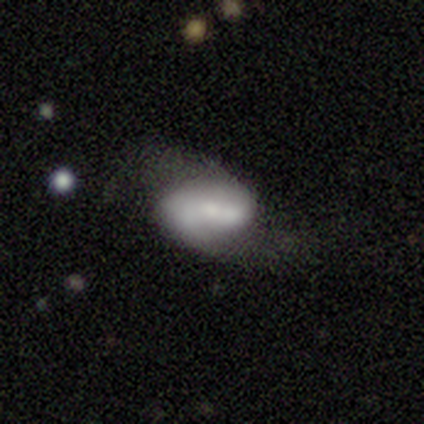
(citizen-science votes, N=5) Smooth or featured?
  - featured or disk: 40% * (tied)
  - star or artifact: 40% * (tied)
  - smooth: 20%
Edge-on disk?
  - no: 100% *
  - yes: 0%
Bar?
  - strong: 50% * (tied)
  - no: 50% * (tied)
  - weak: 0%
Spiral arms?
  - yes: 100% *
  - no: 0%
Spiral winding?
  - loose: 100% *
  - tight: 0%
  - medium: 0%
Spiral arm count?
  - 2: 100% *
  - 1: 0%
  - 3: 0%
  - 4: 0%
  - more than 4: 0%
  - can't tell: 0%
Bulge size?
  - moderate: 100% *
  - dominant: 0%
  - large: 0%
  - small: 0%
  - none: 0%
Merging?
  - minor disturbance: 67% *
  - major disturbance: 33%
  - none: 0%
  - merger: 0%